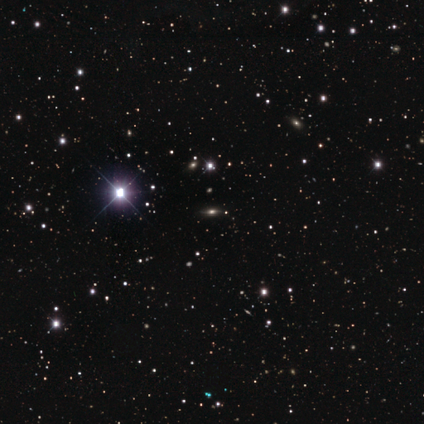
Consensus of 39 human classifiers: smooth_or_featured: star or artifact (p=0.79) [alt: smooth p=0.13]